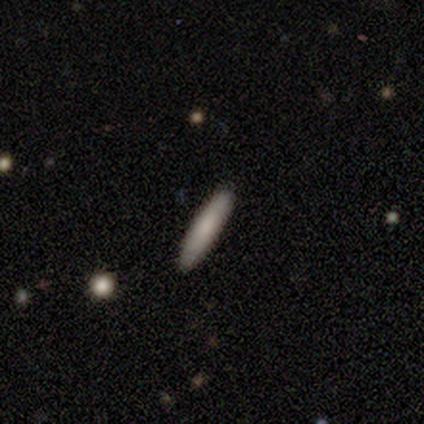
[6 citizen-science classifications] Q: Smooth or featured?
A: smooth (100%)
Q: How rounded?
A: cigar-shaped (100%)
Q: Merging?
A: none (100%)